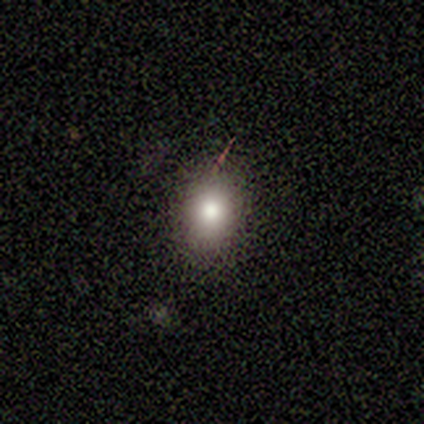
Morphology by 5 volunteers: Volunteers were most divided on "merging" (2-way tie): none: 50%, minor disturbance: 50%, major disturbance: 0%, merger: 0%. More confident: how rounded — in between (67%); smooth or featured — smooth (60%).